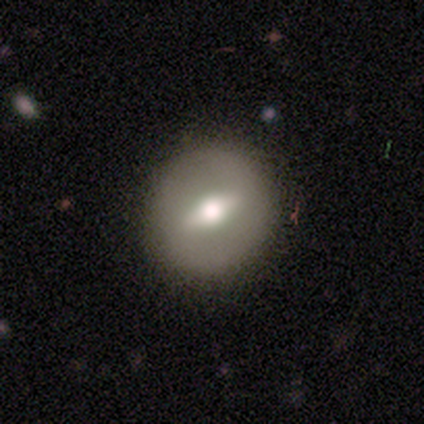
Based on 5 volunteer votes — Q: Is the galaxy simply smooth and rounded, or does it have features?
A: featured or disk — 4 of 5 (80%).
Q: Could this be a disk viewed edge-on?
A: no — 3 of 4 (75%).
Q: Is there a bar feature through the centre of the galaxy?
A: weak — 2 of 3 (67%).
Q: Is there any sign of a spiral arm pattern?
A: no — 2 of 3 (67%).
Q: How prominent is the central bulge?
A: moderate — 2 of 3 (67%).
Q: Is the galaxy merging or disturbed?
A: none — 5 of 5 (100%).